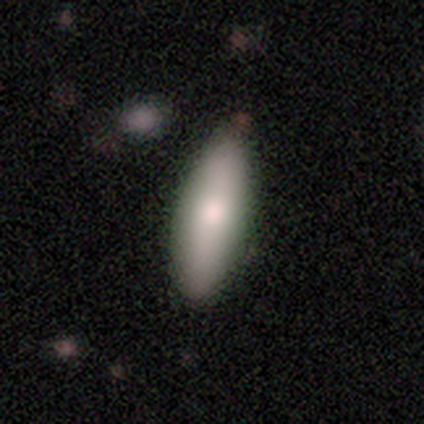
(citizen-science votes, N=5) Q: Smooth or featured?
A: smooth (100%)
Q: How rounded?
A: cigar-shaped (60%); runner-up: in between (40%)
Q: Merging?
A: none (100%)